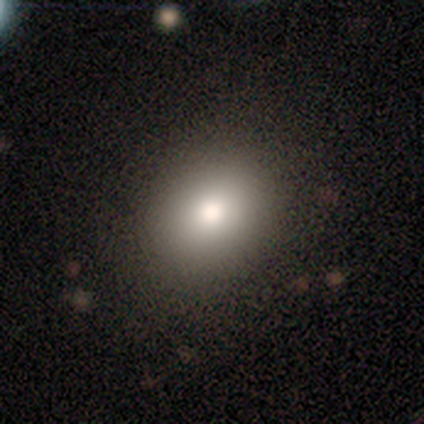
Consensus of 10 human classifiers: This is clearly a smooth galaxy (90%). How rounded: possibly round (56%). Merging: clearly none (89%).